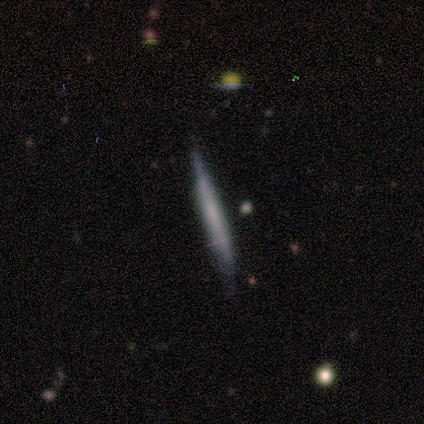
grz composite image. It shows a smooth galaxy with no disk features (80%) that is cigar-shaped (100%). Merging: none (100%).